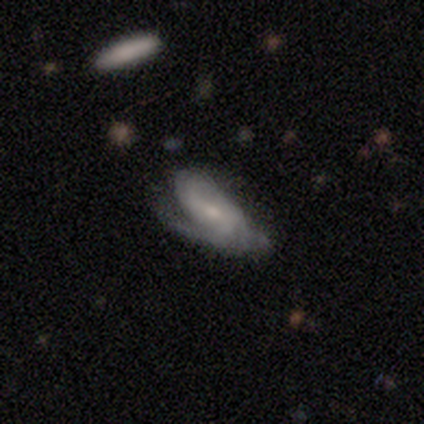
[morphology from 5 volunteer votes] This is clearly a featured or disk galaxy (80%). It is clearly not viewed edge-on (100%). Bar: likely weak (75%). Spiral arm pattern: likely yes (75%). Spiral arm count: marginally 1 (33%, tied with 3 and can't tell). Spiral winding: marginally tight (33%, tied with medium and loose). Central bulge: possibly moderate (50%, tied with small). Merging: likely minor disturbance (60%).